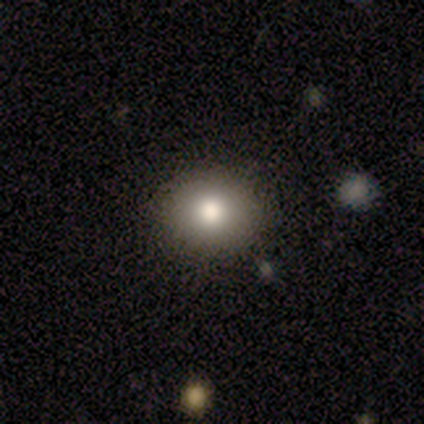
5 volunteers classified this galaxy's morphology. Smooth or featured? 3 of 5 (60%) said smooth. How rounded? 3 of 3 (100%) said round. Merging? 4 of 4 (100%) said none.